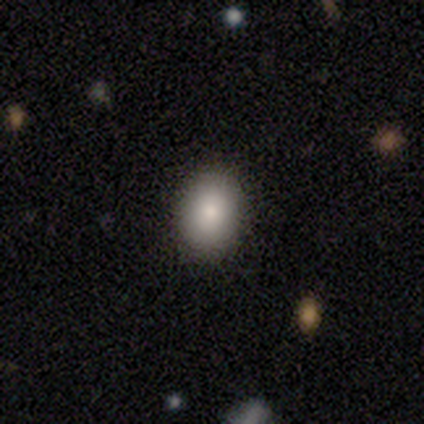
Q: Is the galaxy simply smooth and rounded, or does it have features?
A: smooth — 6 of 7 (86%).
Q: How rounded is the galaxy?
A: in between — 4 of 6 (67%).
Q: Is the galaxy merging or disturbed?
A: none — 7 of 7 (100%).